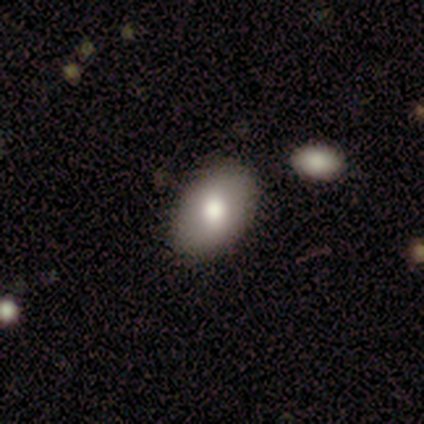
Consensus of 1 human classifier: Overall: smooth (100%). How rounded: in between (100%). Merging: none (100%).